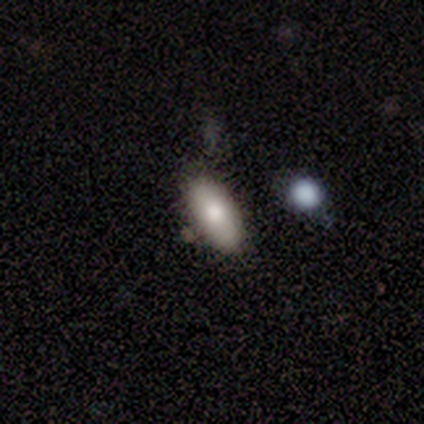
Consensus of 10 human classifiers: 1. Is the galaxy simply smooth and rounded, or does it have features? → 80% smooth, 10% featured or disk, 10% star or artifact.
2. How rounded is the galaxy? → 100% in between, 0% round, 0% cigar-shaped.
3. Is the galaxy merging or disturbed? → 56% none, 22% minor disturbance, 22% merger, 0% major disturbance.